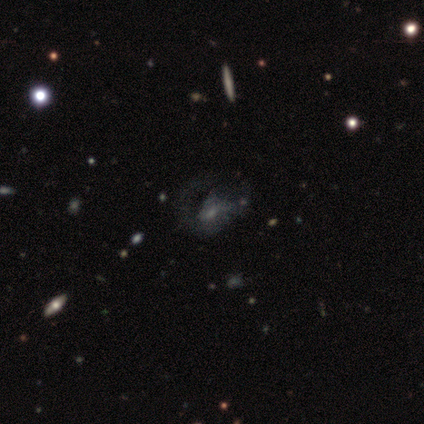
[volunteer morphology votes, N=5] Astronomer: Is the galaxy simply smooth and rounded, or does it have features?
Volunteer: featured or disk — 40%, tied with star or artifact at 40%.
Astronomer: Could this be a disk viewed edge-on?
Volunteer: no — 100%.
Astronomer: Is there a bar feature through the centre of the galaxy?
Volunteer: no — 100%.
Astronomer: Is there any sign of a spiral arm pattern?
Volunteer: yes — 50%, tied with no at 50%.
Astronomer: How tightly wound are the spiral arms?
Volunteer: medium — 100%.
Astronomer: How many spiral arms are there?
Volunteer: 1 — 100%.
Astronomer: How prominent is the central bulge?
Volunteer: small — 100%.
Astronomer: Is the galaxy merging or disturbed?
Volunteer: major disturbance — 67%.